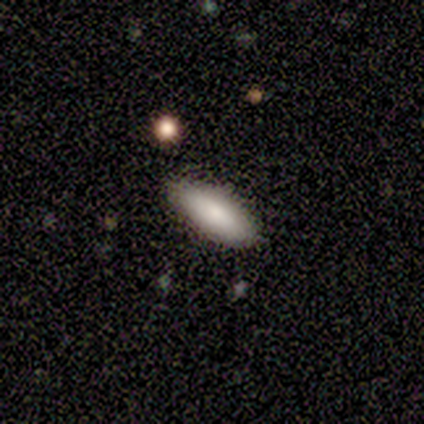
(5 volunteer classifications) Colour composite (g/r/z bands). It shows a smooth galaxy with no disk features (100%) that is in between round and cigar-shaped (80%). Merging: none (100%).